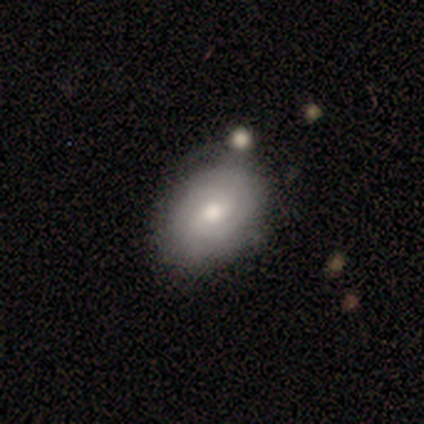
Overall: smooth (50%, tied with featured or disk). How rounded: round (67%; in between 33%). Merging: none (83%).